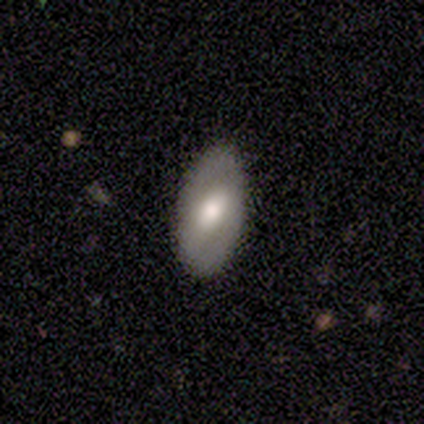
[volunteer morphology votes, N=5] Smooth or featured? featured or disk (60%)
Edge-on disk? no (100%)
Bar? strong (67%)
Spiral arms? yes (67%)
Spiral winding? loose (100%)
Spiral arm count? 2 (100%)
Bulge size? moderate (67%)
Merging? none (80%)